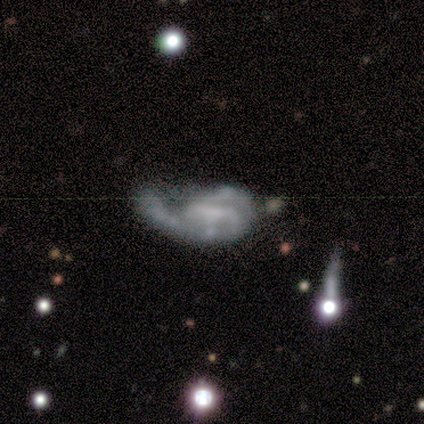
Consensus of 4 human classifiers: smooth_or_featured: featured or disk (p=1.00)
disk_edge_on: no (p=1.00)
bar: no (p=0.50) [alt: strong p=0.25]
has_spiral_arms: yes (p=0.75) [alt: no p=0.25]
spiral_winding: tight (p=0.67) [alt: loose p=0.33]
spiral_arm_count: 2 (p=0.67) [alt: 1 p=0.33]
bulge_size: none (p=1.00)
merging: major disturbance (p=0.75) [alt: minor disturbance p=0.25]